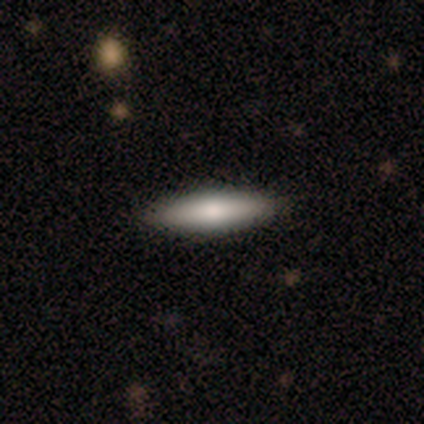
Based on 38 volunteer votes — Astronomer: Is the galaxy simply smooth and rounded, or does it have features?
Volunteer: smooth — 74%.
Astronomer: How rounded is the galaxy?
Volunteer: cigar-shaped — 75%.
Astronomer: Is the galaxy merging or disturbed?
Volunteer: none — 65%.